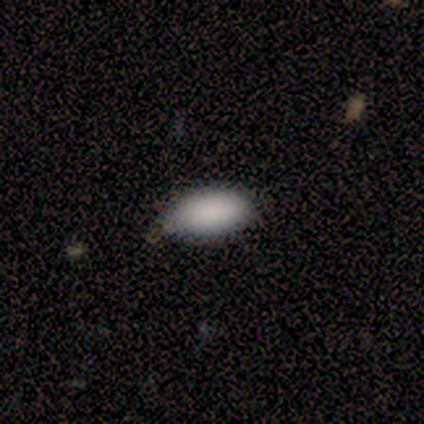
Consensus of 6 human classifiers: A smooth galaxy with no disk features (100%) that is in between round and cigar-shaped (83%). Merging: none (83%).